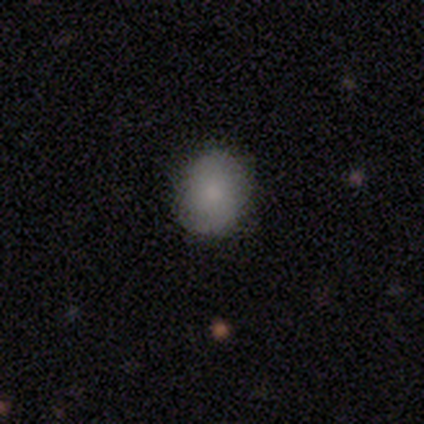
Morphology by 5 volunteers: smooth 80%, featured or disk 20%, star or artifact 0%. Down the decision tree: how rounded — in between (75%); merging — none (100%).